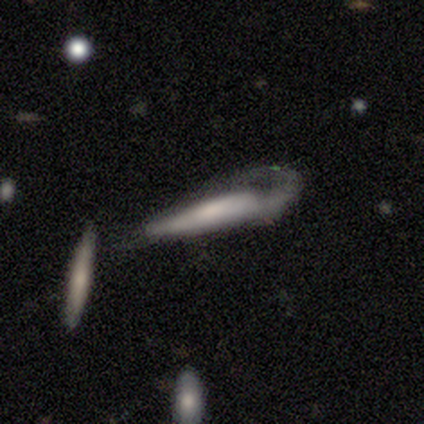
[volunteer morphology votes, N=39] smooth_or_featured: featured or disk (p=0.49) [alt: smooth p=0.46]
disk_edge_on: yes (p=0.79) [alt: no p=0.21]
edge_on_bulge: rounded (p=0.40) [alt: none p=0.33]
merging: major disturbance (p=0.78) [alt: minor disturbance p=0.14]